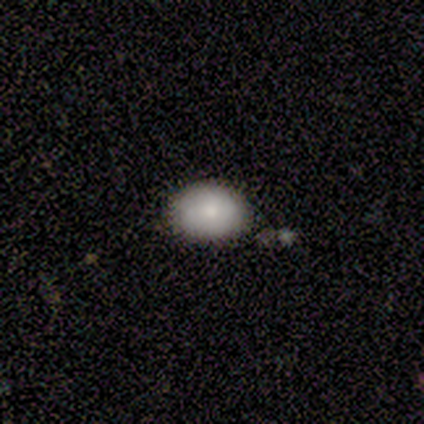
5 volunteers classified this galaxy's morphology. Smooth or featured?
  - smooth: 80% *
  - featured or disk: 20%
  - star or artifact: 0%
How rounded?
  - in between: 100% *
  - round: 0%
  - cigar-shaped: 0%
Merging?
  - none: 60% *
  - minor disturbance: 20%
  - merger: 20%
  - major disturbance: 0%